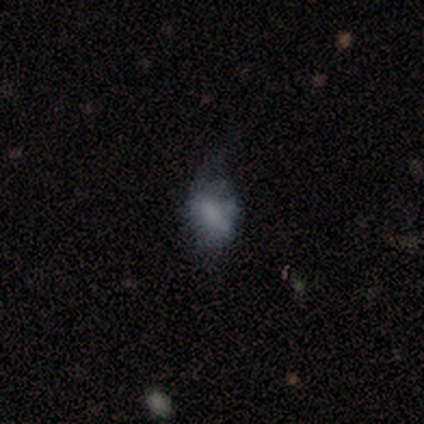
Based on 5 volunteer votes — smooth-or-featured: smooth: 60% | featured or disk: 20% | star or artifact: 20%
  how-rounded: in between: 67% | round: 33% | cigar-shaped: 0%
  merging: none: 75% | major disturbance: 25% | minor disturbance: 0% | merger: 0%